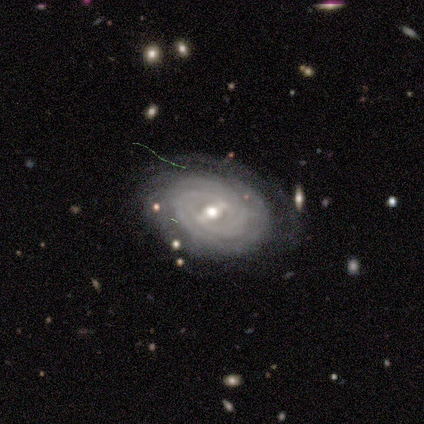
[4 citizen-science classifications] This is clearly a featured or disk galaxy (100%). It is clearly not viewed edge-on (100%). Bar: possibly weak (50%). Spiral arm pattern: clearly yes (100%). Spiral arm count: possibly 2 (50%). Spiral winding: clearly tight (100%). Central bulge: clearly small (100%). Merging: likely none (75%).